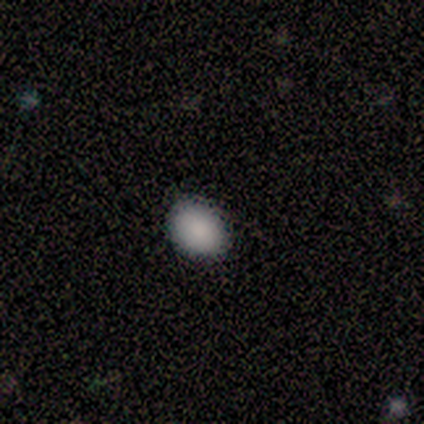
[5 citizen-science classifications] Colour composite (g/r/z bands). It shows a smooth galaxy with no disk features (100%) that is in between round and cigar-shaped (60%). Merging: none (100%).